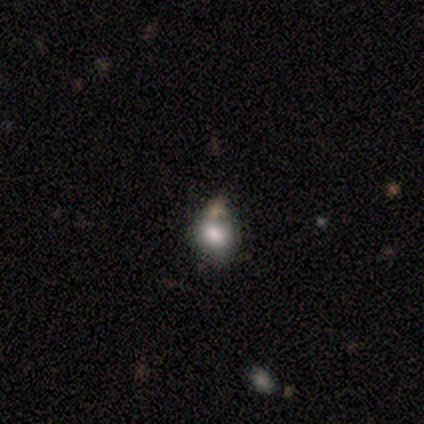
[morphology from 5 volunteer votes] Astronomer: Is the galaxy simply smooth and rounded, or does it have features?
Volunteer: smooth — 80%.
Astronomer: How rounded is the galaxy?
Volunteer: round — 100%.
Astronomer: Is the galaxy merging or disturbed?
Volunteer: none — 80%.